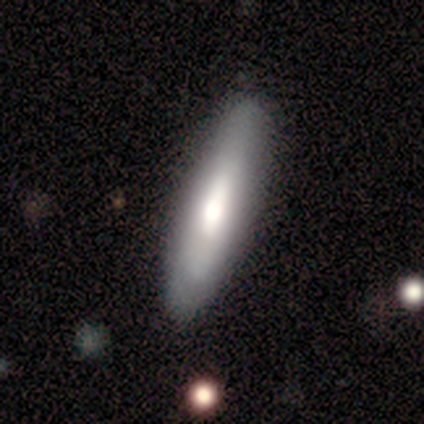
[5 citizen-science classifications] smooth_or_featured: smooth (p=0.60) [alt: featured or disk p=0.20]
how_rounded: in between (p=0.67) [alt: cigar-shaped p=0.33]
merging: none (p=0.50) [tied with: minor disturbance p=0.50]